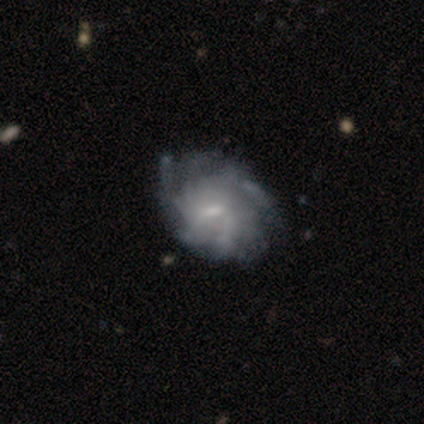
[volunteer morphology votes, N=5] Q: Smooth or featured?
A: featured or disk (80%); runner-up: smooth (20%)
Q: Edge-on disk?
A: no (100%)
Q: Bar?
A: no (75%); runner-up: weak (25%)
Q: Spiral arms?
A: yes (100%)
Q: Spiral winding?
A: medium (50%); tied with: loose (50%)
Q: Spiral arm count?
A: can't tell (50%); runner-up: 3 (25%)
Q: Bulge size?
A: none (50%); runner-up: moderate (25%)
Q: Merging?
A: minor disturbance (80%); runner-up: none (20%)